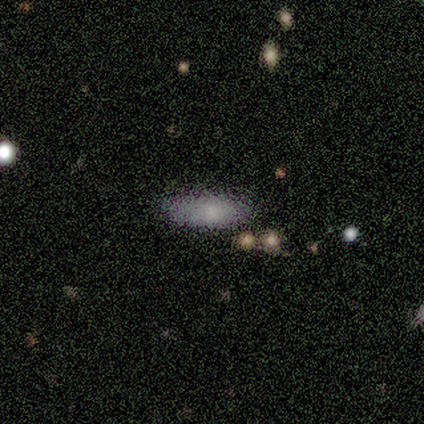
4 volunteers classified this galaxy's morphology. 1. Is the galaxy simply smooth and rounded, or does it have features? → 50% smooth (tied), 50% featured or disk (tied), 0% star or artifact.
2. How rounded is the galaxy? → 100% in between, 0% round, 0% cigar-shaped.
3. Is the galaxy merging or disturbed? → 100% none, 0% minor disturbance, 0% major disturbance, 0% merger.